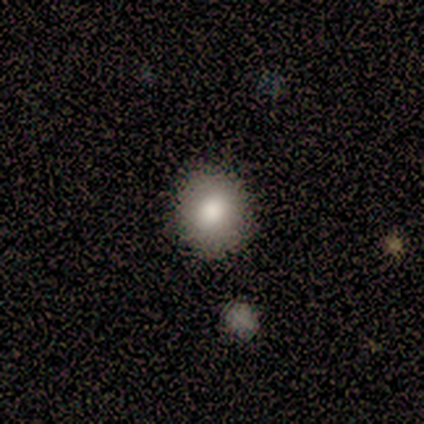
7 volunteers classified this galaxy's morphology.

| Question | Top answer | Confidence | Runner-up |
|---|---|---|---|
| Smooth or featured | smooth | 86% | featured or disk (14%) |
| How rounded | round | 100% | — |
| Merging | none | 100% | — |